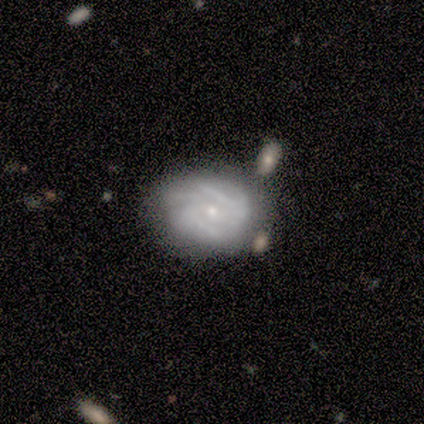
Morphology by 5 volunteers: smooth-or-featured: featured or disk: 60% | smooth: 40% | star or artifact: 0%
  disk-edge-on: no: 100% | yes: 0%
    bar: no: 67% | strong: 33% | weak: 0%
    has-spiral-arms: yes: 100% | no: 0%
      spiral-winding: tight: 67% | medium: 33% | loose: 0%
      spiral-arm-count: 3: 67% | can't tell: 33% | 1: 0% | 2: 0% | 4: 0% | more than 4: 0%
    bulge-size: small: 100% | dominant: 0% | large: 0% | moderate: 0% | none: 0%
  merging: none: 80% | minor disturbance: 20% | major disturbance: 0% | merger: 0%